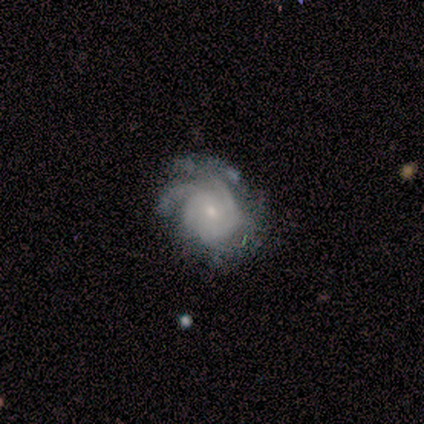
Volunteers were most divided on "merging": none: 50%, minor disturbance: 40%, major disturbance: 10%, merger: 0%. Remaining: edge-on disk — no (100%); bar — no (100%); spiral arms — yes (100%); smooth or featured — featured or disk (91%); bulge size — small (60%); spiral winding — tight (60%); spiral arm count — can't tell (40%).